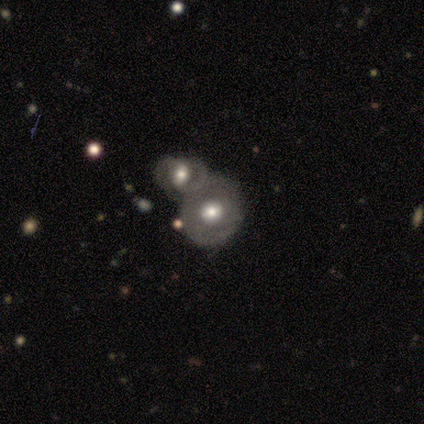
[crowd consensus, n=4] A smooth galaxy with no disk features (50%, tied with featured or disk) that is round (100%).

Vote fractions:
- Smooth or featured? smooth: 50% (tied) / featured or disk: 50% (tied) / star or artifact: 0%
- How rounded? round: 100% / in between: 0% / cigar-shaped: 0%
- Merging? merger: 75% / none: 25% / minor disturbance: 0% / major disturbance: 0%